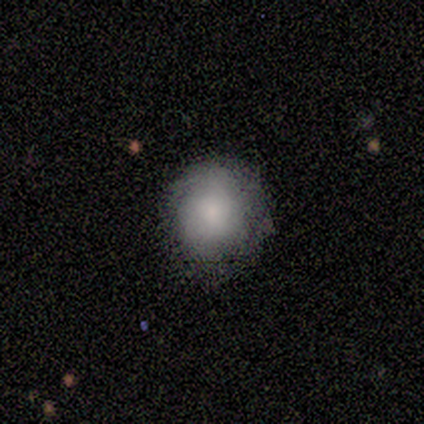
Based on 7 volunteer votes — smooth_or_featured: smooth (p=0.71) [alt: star or artifact p=0.29]
how_rounded: round (p=1.00)
merging: none (p=0.60) [alt: minor disturbance p=0.40]